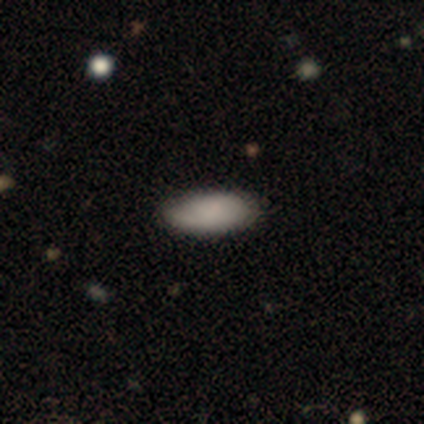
Smooth or featured? smooth (60%)
How rounded? in between (67%)
Merging? none (60%)